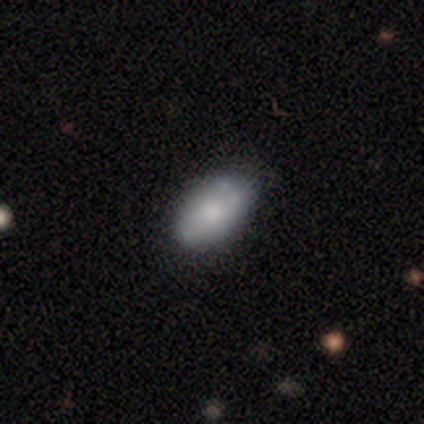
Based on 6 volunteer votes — Volunteers were most divided on "merging": none: 67%, minor disturbance: 33%, major disturbance: 0%, merger: 0%. More confident: how rounded — in between (100%); smooth or featured — smooth (83%).